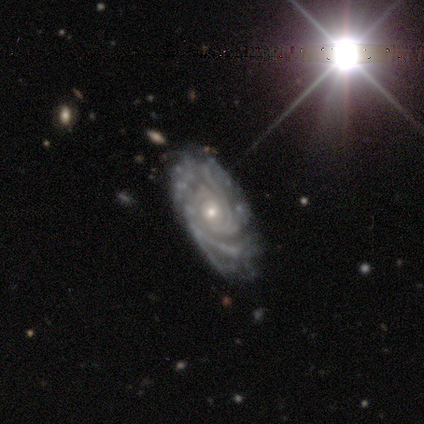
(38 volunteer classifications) This appears to be a featured or disk galaxy (95%) with no bar (82%), more than 4 (31%) tight (88%) spiral arms (94%) and a small central bulge (76%). Merging: none (65%).